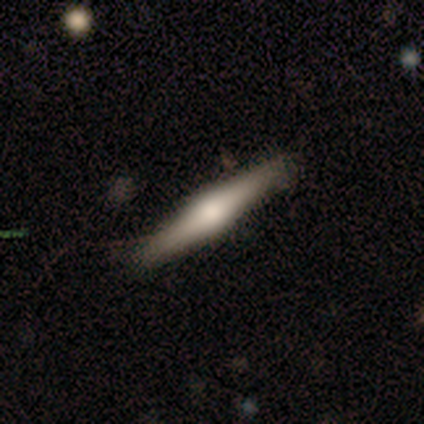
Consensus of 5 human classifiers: smooth_or_featured: featured or disk (p=0.60) [alt: smooth p=0.40]
disk_edge_on: yes (p=1.00)
edge_on_bulge: rounded (p=1.00)
merging: none (p=1.00)